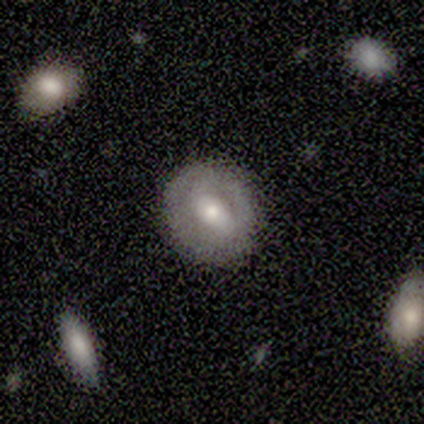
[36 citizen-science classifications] Smooth or featured: featured or disk — 67% (smooth — 33%)
Edge-on disk: no — 83% (yes — 17%)
Bar: weak — 55% (no — 30%)
Spiral arms: no — 60% (yes — 40%)
Bulge size: moderate — 45% (large — 25%)
Merging: none — 86% (minor disturbance — 11%)